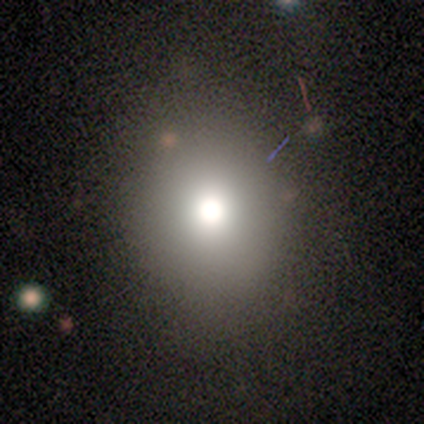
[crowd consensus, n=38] This appears to be a smooth galaxy with no disk features (82%) that is round (77%). Merging: none (81%).